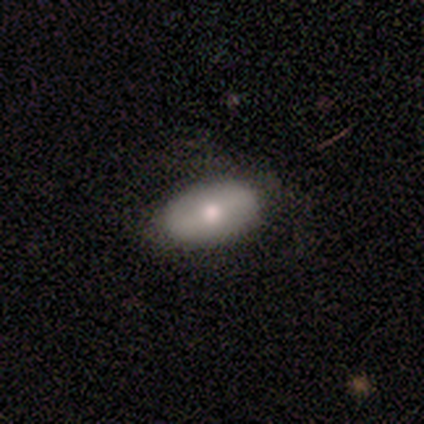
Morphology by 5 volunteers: Q: Smooth or featured?
A: smooth (60%); runner-up: featured or disk (20%)
Q: How rounded?
A: in between (100%)
Q: Merging?
A: none (100%)